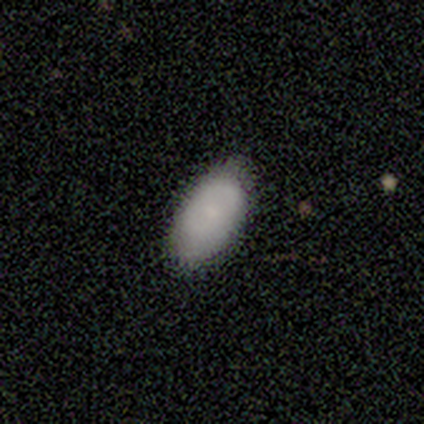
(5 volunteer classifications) Overall: smooth (100%). How rounded: in between (100%). Merging: none (80%).